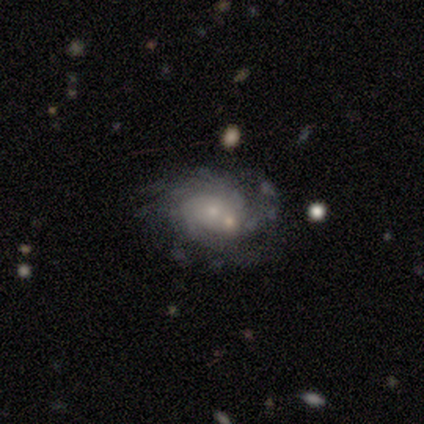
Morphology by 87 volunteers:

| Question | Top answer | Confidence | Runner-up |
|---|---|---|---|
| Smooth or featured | featured or disk | 80% | smooth (17%) |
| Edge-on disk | no | 99% | yes (1%) |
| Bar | no | 86% | weak (9%) |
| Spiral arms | yes | 84% | no (16%) |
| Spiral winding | tight | 59% | medium (33%) |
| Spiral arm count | can't tell | 52% | more than 4 (29%) |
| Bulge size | small | 68% | moderate (22%) |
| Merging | none | 45% | merger (24%) |